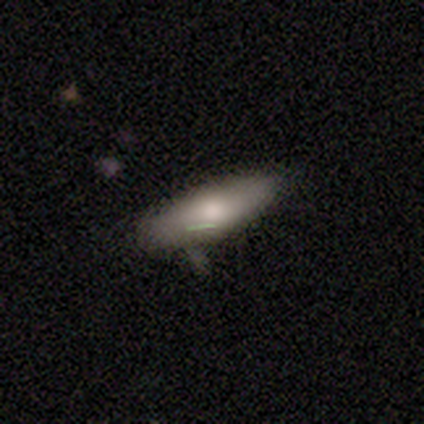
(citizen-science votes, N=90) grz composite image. It shows a smooth galaxy with no disk features (71%) that is in between round and cigar-shaped (58%). Merging: none (66%).